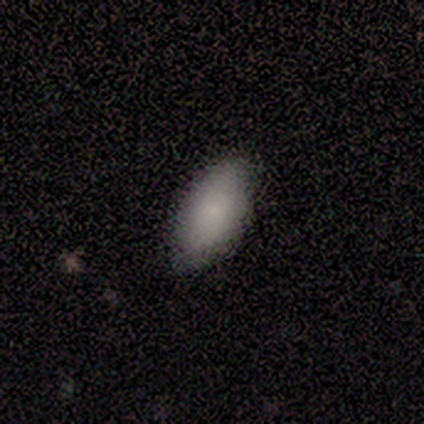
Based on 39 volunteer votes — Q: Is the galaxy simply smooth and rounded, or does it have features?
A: smooth — 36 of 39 (92%).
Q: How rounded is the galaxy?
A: in between — 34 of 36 (94%).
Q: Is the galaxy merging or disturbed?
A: none — 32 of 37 (86%).